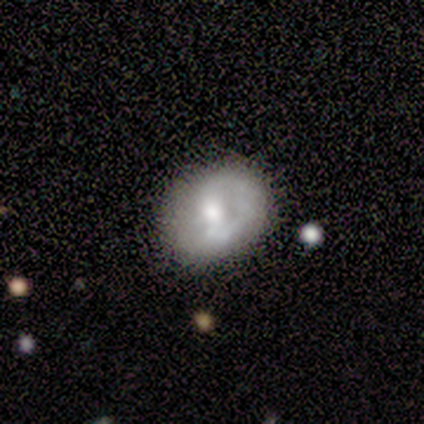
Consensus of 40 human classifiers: Smooth or featured?
  - featured or disk: 60% *
  - smooth: 38%
  - star or artifact: 2%
Edge-on disk?
  - no: 96% *
  - yes: 4%
Bar?
  - no: 52% *
  - weak: 30%
  - strong: 17%
Spiral arms?
  - no: 65% *
  - yes: 35%
Bulge size?
  - moderate: 70% *
  - small: 22%
  - dominant: 4%
  - large: 4%
  - none: 0%
Merging?
  - none: 67% *
  - minor disturbance: 26%
  - major disturbance: 8%
  - merger: 0%